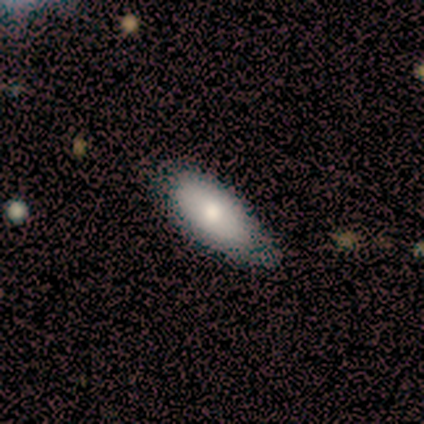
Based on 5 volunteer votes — A featured or disk galaxy (80%) with no bar (100%), no spiral arms (100%) and a moderate central bulge (75%).

Vote fractions:
- Smooth or featured? featured or disk: 80% / smooth: 20% / star or artifact: 0%
- Edge-on disk? no: 100% / yes: 0%
- Bar? no: 100% / strong: 0% / weak: 0%
- Spiral arms? no: 100% / yes: 0%
- Bulge size? moderate: 75% / large: 25% / dominant: 0% / small: 0% / none: 0%
- Merging? none: 60% / minor disturbance: 40% / major disturbance: 0% / merger: 0%